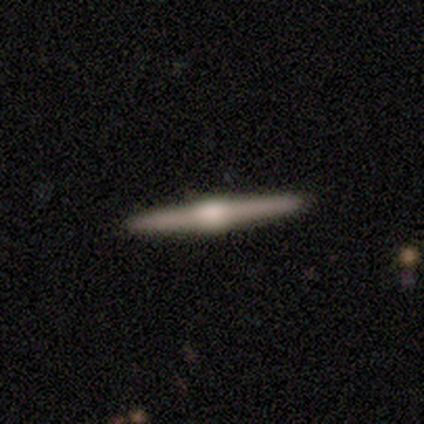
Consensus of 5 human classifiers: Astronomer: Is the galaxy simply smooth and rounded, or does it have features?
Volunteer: featured or disk — 100%.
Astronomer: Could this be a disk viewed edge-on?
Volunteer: yes — 100%.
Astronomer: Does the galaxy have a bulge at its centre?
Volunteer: rounded — 80%.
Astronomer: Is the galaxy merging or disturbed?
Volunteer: none — 100%.